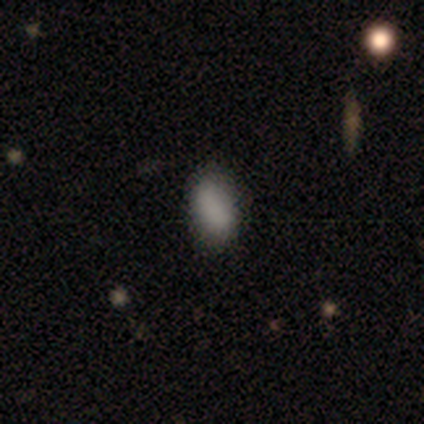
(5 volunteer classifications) Morphology: type=smooth (100%); roundness=in between (100%); merging=none (60%).